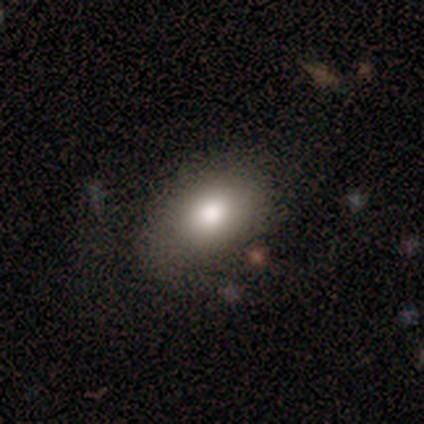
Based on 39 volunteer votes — A smooth galaxy with no disk features (95%) that is in between round and cigar-shaped (84%). Merging: none (79%).